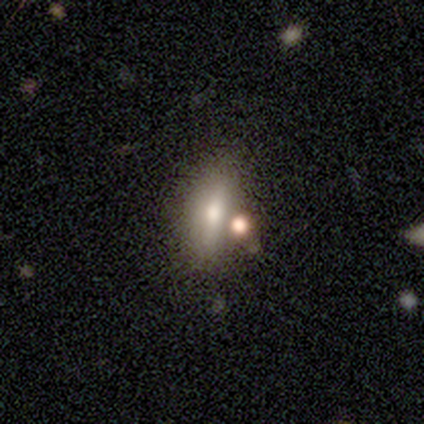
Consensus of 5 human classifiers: Morphology: type=smooth (60%); roundness=in between (100%); merging=none (40%).